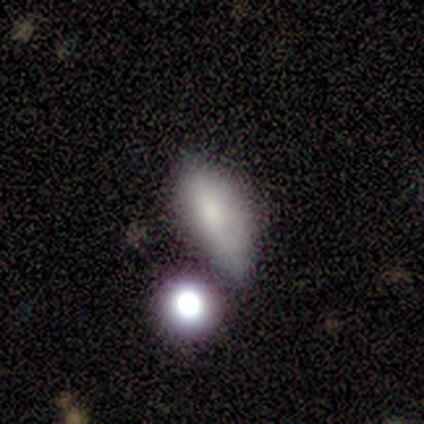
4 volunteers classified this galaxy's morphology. Smooth or featured?
  - smooth: 50% *
  - featured or disk: 25%
  - star or artifact: 25%
How rounded?
  - in between: 100% *
  - round: 0%
  - cigar-shaped: 0%
Merging?
  - none: 67% *
  - minor disturbance: 33%
  - major disturbance: 0%
  - merger: 0%